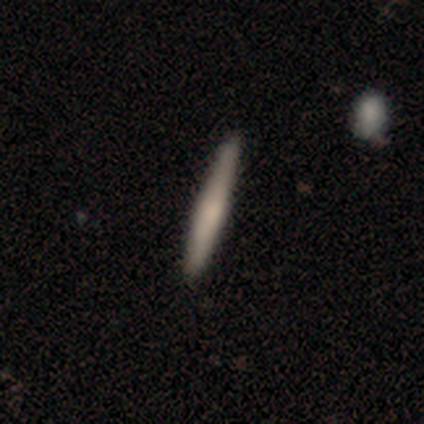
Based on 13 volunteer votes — This is likely a smooth galaxy (77%). How rounded: clearly cigar-shaped (100%). Merging: clearly none (92%).